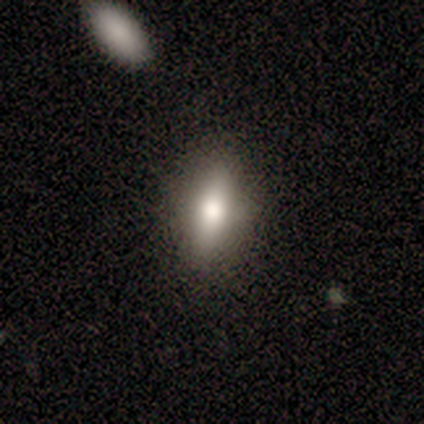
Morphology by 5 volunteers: Smooth or featured?
  - smooth: 80% *
  - star or artifact: 20%
  - featured or disk: 0%
How rounded?
  - in between: 100% *
  - round: 0%
  - cigar-shaped: 0%
Merging?
  - none: 100% *
  - minor disturbance: 0%
  - major disturbance: 0%
  - merger: 0%